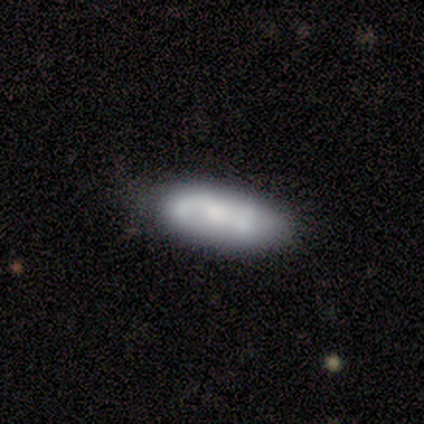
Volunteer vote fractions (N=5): featured or disk 60%, smooth 40%, star or artifact 0%. Down the decision tree: edge-on disk — no (100%); bar — strong (33%, tied with weak and no); spiral arms — yes (100%); spiral arm count — 2 (67%); spiral winding — medium (67%); bulge size — small (67%); merging — none (80%).